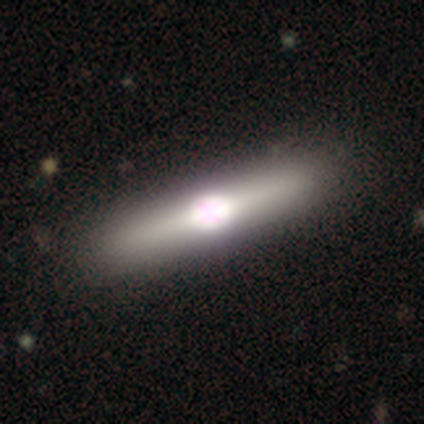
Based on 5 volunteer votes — Volunteers were most divided on "merging": none: 60%, minor disturbance: 40%, major disturbance: 0%, merger: 0%. More confident: smooth or featured — featured or disk (80%); edge-on disk — yes (75%); edge-on bulge — rounded (67%).